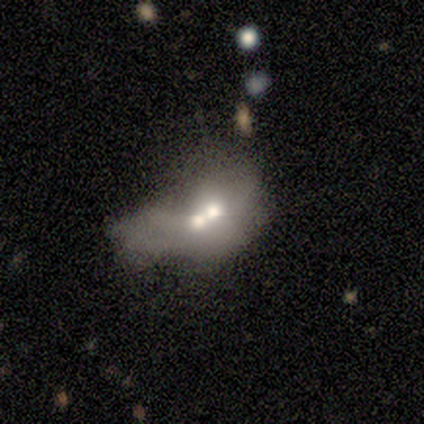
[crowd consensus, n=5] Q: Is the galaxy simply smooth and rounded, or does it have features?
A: featured or disk — 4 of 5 (80%).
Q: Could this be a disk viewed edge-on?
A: no — 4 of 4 (100%).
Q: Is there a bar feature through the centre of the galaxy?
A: no — 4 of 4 (100%).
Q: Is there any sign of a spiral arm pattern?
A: no — 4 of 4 (100%).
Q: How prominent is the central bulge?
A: small — 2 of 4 (50%).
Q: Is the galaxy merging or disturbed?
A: merger — 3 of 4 (75%).